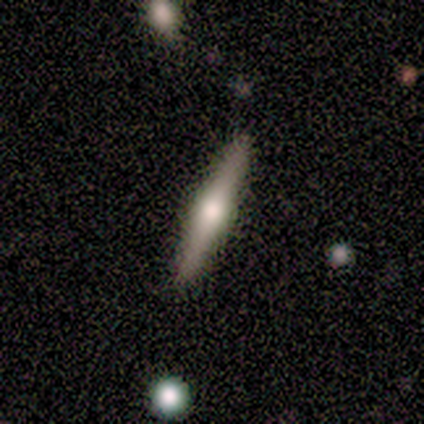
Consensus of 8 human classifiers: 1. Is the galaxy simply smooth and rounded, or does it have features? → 88% featured or disk, 12% smooth, 0% star or artifact.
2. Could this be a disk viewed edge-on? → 100% yes, 0% no.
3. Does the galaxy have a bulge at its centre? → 57% rounded, 43% none, 0% boxy.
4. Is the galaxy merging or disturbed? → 88% none, 12% minor disturbance, 0% major disturbance, 0% merger.